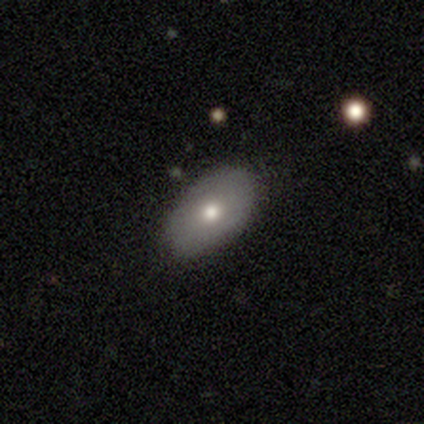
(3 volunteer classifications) Q: Smooth or featured?
A: smooth (100%)
Q: How rounded?
A: in between (100%)
Q: Merging?
A: none (67%); runner-up: minor disturbance (33%)